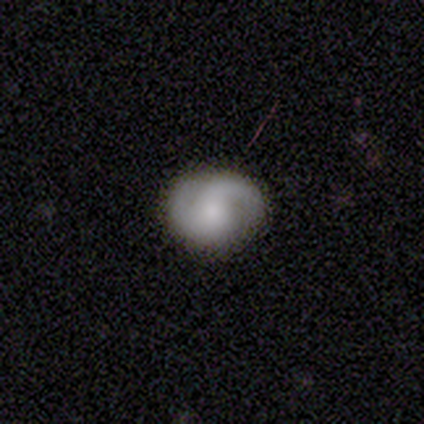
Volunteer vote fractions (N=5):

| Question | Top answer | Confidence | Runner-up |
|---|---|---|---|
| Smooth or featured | featured or disk | 100% | — |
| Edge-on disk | no | 100% | — |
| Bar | weak | 40% | tied: no (40%) |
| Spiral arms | yes | 100% | — |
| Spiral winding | tight | 40% | tied: medium (40%) |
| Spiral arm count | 2 | 40% | 1 (20%) |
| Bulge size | small | 40% | dominant (20%) |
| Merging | none | 100% | — |